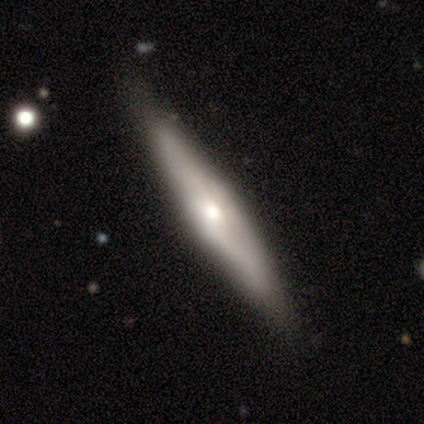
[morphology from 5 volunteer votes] Overall: featured or disk (80%). Edge-on disk: yes (75%). Edge-on bulge: rounded (100%). Merging: none (60%; minor disturbance 40%).